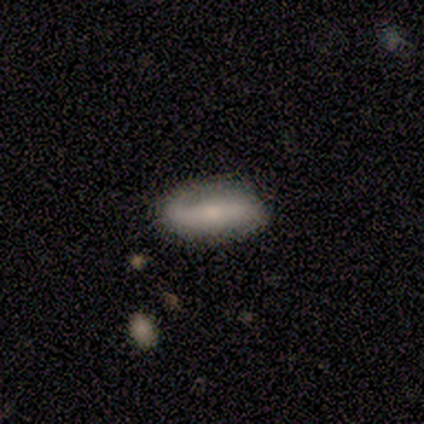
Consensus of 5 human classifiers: smooth-or-featured: featured or disk: 80% | smooth: 20% | star or artifact: 0%
  disk-edge-on: no: 100% | yes: 0%
    bar: strong: 100% | weak: 0% | no: 0%
    has-spiral-arms: yes: 100% | no: 0%
      spiral-winding: medium: 50% (tied) | loose: 50% (tied) | tight: 0%
      spiral-arm-count: 2: 100% | 1: 0% | 3: 0% | 4: 0% | more than 4: 0% | can't tell: 0%
    bulge-size: small: 50% | large: 25% | moderate: 25% | dominant: 0% | none: 0%
  merging: none: 100% | minor disturbance: 0% | major disturbance: 0% | merger: 0%